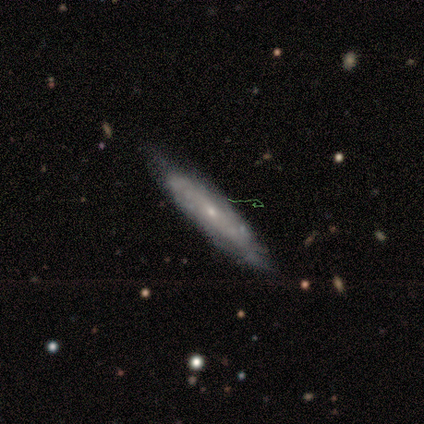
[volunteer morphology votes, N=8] type=smooth (50%, tied with featured or disk); roundness=cigar-shaped (75%); merging=none (62%).